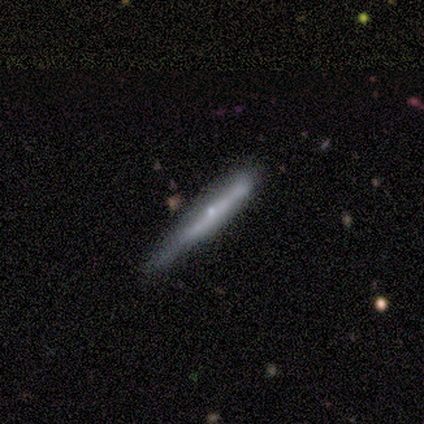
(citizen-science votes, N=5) A featured or disk galaxy (60%) viewed edge-on (67%) with no central bulge (50%, tied with rounded). Merging: none (60%).